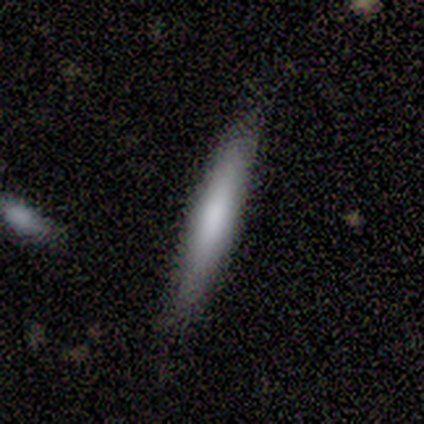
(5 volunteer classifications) Morphology: type=smooth (60%); roundness=cigar-shaped (100%); merging=none (100%).